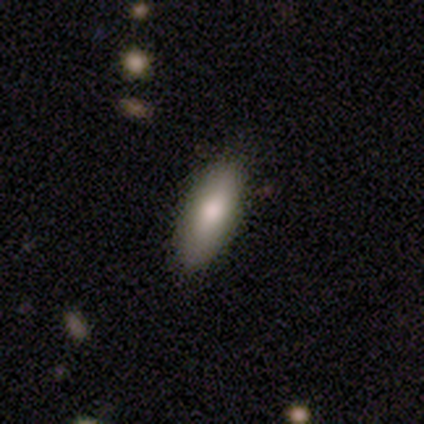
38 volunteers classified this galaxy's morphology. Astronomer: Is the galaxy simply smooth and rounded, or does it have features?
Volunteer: smooth — 82%.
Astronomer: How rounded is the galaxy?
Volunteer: in between — 71%.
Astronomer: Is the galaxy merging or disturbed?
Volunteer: none — 86%.